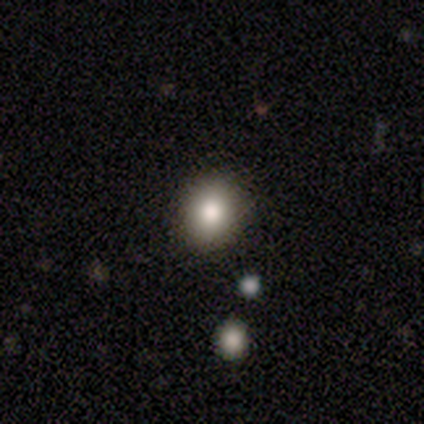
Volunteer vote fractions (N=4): Overall: smooth (75%). How rounded: round (67%; in between 33%). Merging: none (75%).